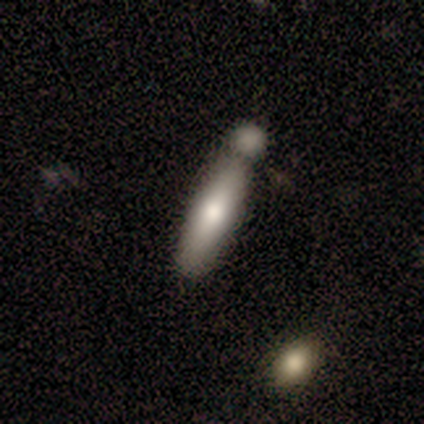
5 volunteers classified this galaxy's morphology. This is clearly a smooth galaxy (80%). How rounded: likely cigar-shaped (75%). Merging: possibly merger (50%).